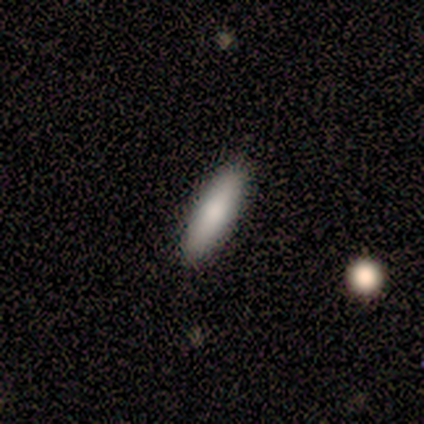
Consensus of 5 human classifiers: Smooth or featured: smooth — 80% (featured or disk — 20%)
How rounded: in between — 50% (tied with cigar-shaped — 50%)
Merging: none — 100%